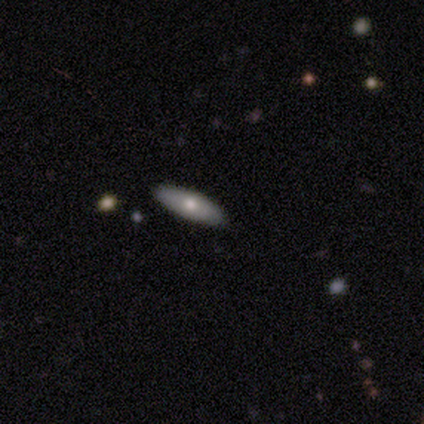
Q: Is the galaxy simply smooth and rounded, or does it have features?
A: smooth — 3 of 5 (60%).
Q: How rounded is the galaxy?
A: in between — 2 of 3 (67%).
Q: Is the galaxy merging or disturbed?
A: none — 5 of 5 (100%).